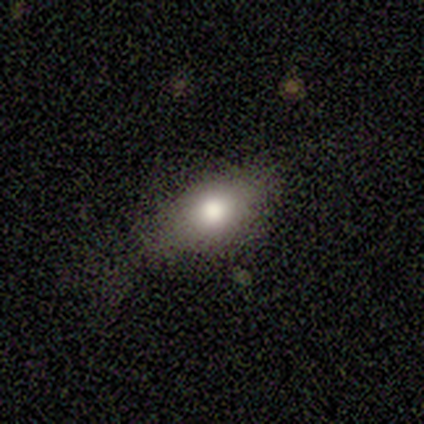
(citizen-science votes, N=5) smooth-or-featured: smooth: 100% | featured or disk: 0% | star or artifact: 0%
  how-rounded: in between: 100% | round: 0% | cigar-shaped: 0%
  merging: none: 80% | minor disturbance: 20% | major disturbance: 0% | merger: 0%